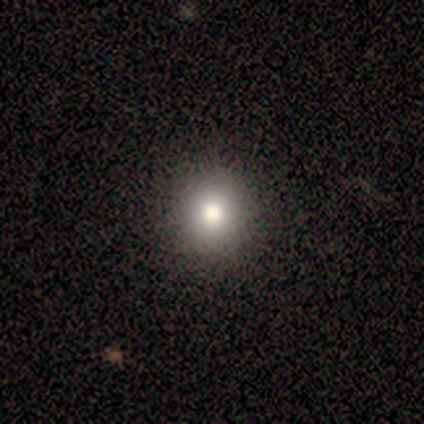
Smooth or featured? smooth (91%)
How rounded? round (70%)
Merging? none (82%)